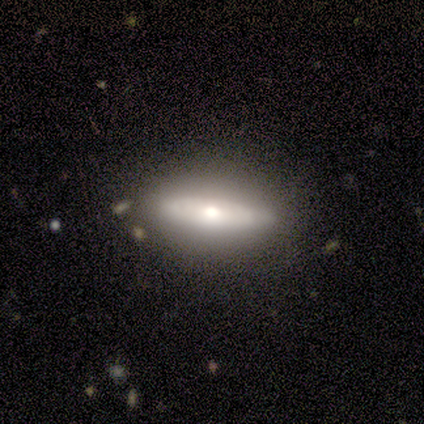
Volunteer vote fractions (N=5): Smooth or featured? 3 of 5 (60%) said smooth. How rounded? 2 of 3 (67%) said cigar-shaped. Merging? 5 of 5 (100%) said none.